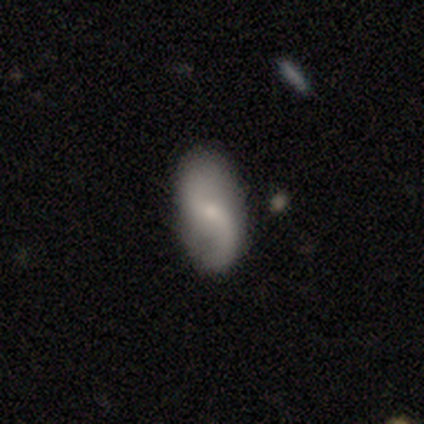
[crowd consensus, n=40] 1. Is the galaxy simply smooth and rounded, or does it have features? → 52% featured or disk, 45% smooth, 2% star or artifact.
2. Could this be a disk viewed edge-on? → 100% no, 0% yes.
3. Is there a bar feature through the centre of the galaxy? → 76% no, 24% weak, 0% strong.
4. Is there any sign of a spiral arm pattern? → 100% yes, 0% no.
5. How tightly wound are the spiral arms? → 90% loose, 10% medium, 0% tight.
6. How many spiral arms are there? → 100% 2, 0% 1, 0% 3, 0% 4, 0% more than 4, 0% can't tell.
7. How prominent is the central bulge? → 67% small, 19% moderate, 14% none, 0% dominant, 0% large.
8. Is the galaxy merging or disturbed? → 79% none, 21% minor disturbance, 0% major disturbance, 0% merger.